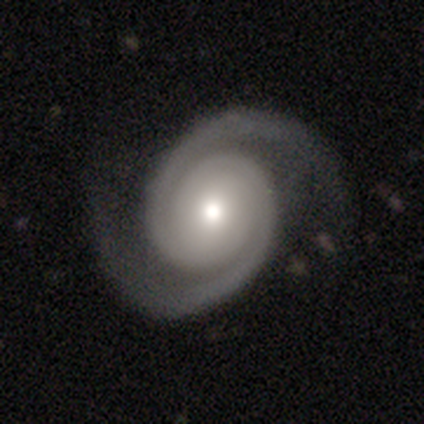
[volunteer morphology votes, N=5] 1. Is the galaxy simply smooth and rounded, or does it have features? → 100% featured or disk, 0% smooth, 0% star or artifact.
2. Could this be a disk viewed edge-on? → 100% no, 0% yes.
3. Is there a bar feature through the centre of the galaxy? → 60% weak, 20% strong, 20% no.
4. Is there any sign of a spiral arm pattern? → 100% yes, 0% no.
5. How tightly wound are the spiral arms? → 100% tight, 0% medium, 0% loose.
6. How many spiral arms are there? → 100% 2, 0% 1, 0% 3, 0% 4, 0% more than 4, 0% can't tell.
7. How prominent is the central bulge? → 80% moderate, 20% small, 0% dominant, 0% large, 0% none.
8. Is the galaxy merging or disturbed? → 80% none, 20% minor disturbance, 0% major disturbance, 0% merger.